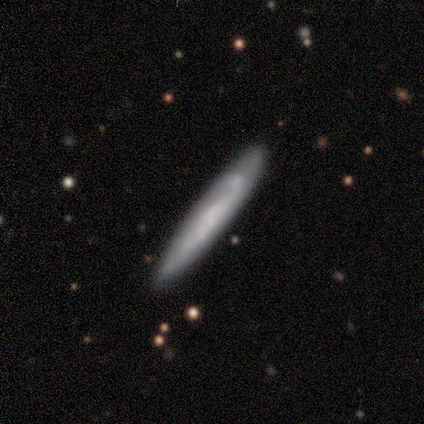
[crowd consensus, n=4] Q: Smooth or featured?
A: smooth (50%); tied with: featured or disk (50%)
Q: How rounded?
A: cigar-shaped (100%)
Q: Merging?
A: none (75%); runner-up: minor disturbance (25%)